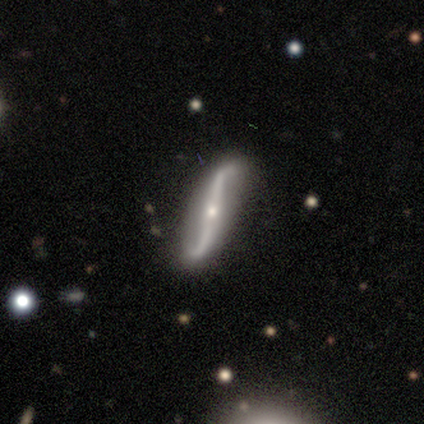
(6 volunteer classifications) smooth-or-featured: featured or disk: 83% | smooth: 17% | star or artifact: 0%
  disk-edge-on: no: 60% | yes: 40%
    bar: strong: 67% | no: 33% | weak: 0%
    has-spiral-arms: yes: 100% | no: 0%
      spiral-winding: loose: 100% | tight: 0% | medium: 0%
      spiral-arm-count: 2: 100% | 1: 0% | 3: 0% | 4: 0% | more than 4: 0% | can't tell: 0%
    bulge-size: small: 100% | dominant: 0% | large: 0% | moderate: 0% | none: 0%
  merging: none: 83% | minor disturbance: 17% | major disturbance: 0% | merger: 0%